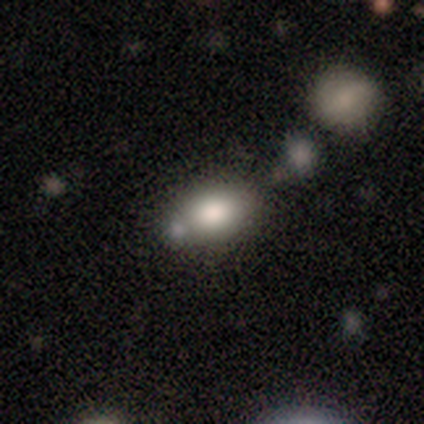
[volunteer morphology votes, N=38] Q: Smooth or featured?
A: smooth (84%); runner-up: featured or disk (8%)
Q: How rounded?
A: in between (62%); runner-up: round (34%)
Q: Merging?
A: none (63%); runner-up: merger (20%)